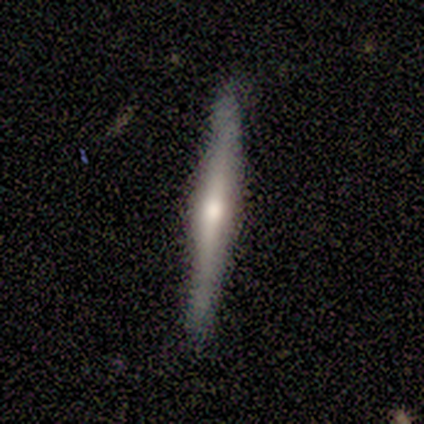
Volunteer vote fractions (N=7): smooth_or_featured: featured or disk (p=0.71) [alt: smooth p=0.29]
disk_edge_on: yes (p=1.00)
edge_on_bulge: rounded (p=1.00)
merging: none (p=1.00)